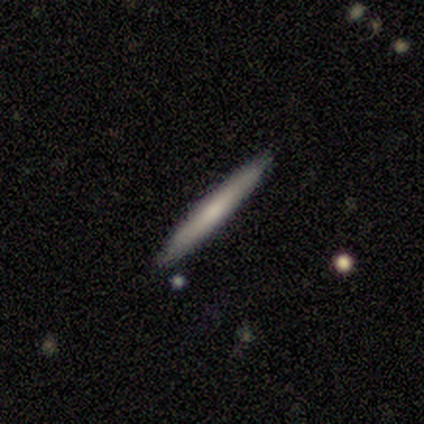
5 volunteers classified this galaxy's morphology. Volunteers were most divided on "smooth or featured": smooth: 80%, featured or disk: 20%, star or artifact: 0%. More confident: how rounded — cigar-shaped (100%); merging — none (100%).